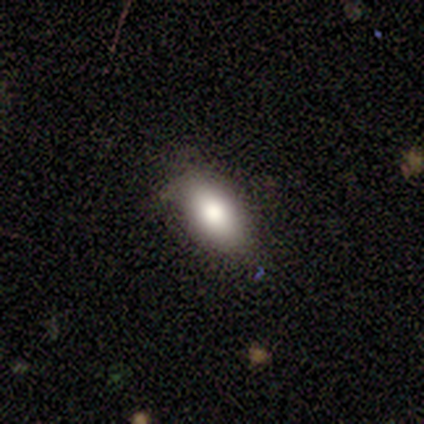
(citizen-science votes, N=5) A smooth galaxy with no disk features (80%) that is in between round and cigar-shaped (75%).

Vote fractions:
- Smooth or featured? smooth: 80% / featured or disk: 20% / star or artifact: 0%
- How rounded? in between: 75% / cigar-shaped: 25% / round: 0%
- Merging? none: 80% / minor disturbance: 20% / major disturbance: 0% / merger: 0%